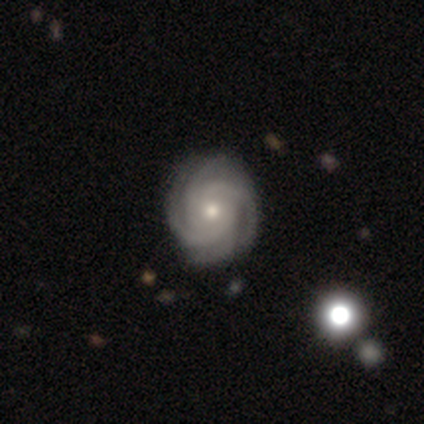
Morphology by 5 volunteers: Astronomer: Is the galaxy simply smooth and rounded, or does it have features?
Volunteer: featured or disk — 100%.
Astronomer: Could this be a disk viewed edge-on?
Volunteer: no — 100%.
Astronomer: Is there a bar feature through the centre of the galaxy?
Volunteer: no — 60%.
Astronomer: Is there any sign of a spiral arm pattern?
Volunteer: yes — 100%.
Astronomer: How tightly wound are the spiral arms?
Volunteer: tight — 100%.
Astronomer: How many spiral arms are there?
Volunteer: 4 — 80%.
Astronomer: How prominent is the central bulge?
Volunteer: moderate — 80%.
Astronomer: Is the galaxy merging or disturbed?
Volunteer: none — 80%.